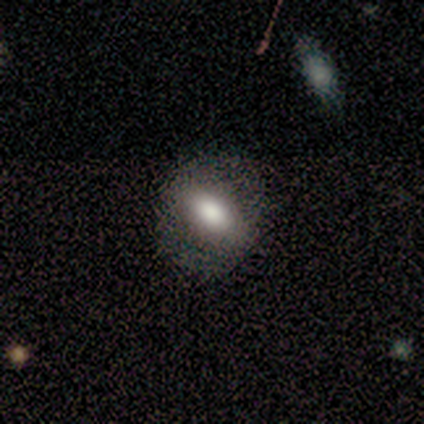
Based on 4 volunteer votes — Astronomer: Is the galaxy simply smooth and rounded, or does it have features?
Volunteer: smooth — 50%, tied with featured or disk at 50%.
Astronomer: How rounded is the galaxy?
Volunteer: in between — 100%.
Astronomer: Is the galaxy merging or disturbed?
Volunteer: none — 75%.